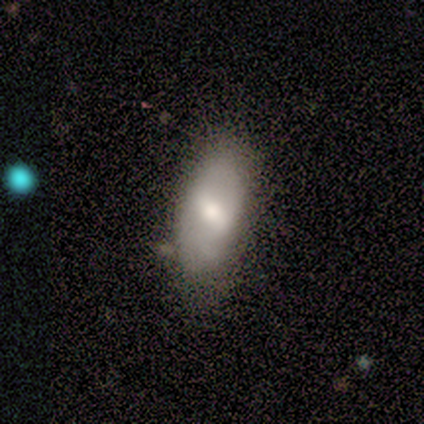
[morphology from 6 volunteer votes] Smooth or featured?
  - smooth: 100% *
  - featured or disk: 0%
  - star or artifact: 0%
How rounded?
  - in between: 100% *
  - round: 0%
  - cigar-shaped: 0%
Merging?
  - none: 50% * (tied)
  - minor disturbance: 50% * (tied)
  - major disturbance: 0%
  - merger: 0%